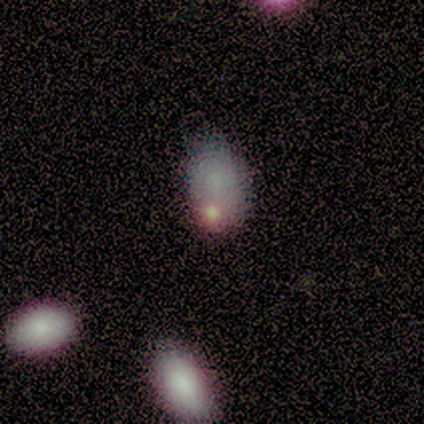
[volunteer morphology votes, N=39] Q: Smooth or featured?
A: smooth (67%); runner-up: star or artifact (18%)
Q: How rounded?
A: in between (96%); runner-up: round (4%)
Q: Merging?
A: none (53%); runner-up: minor disturbance (22%)